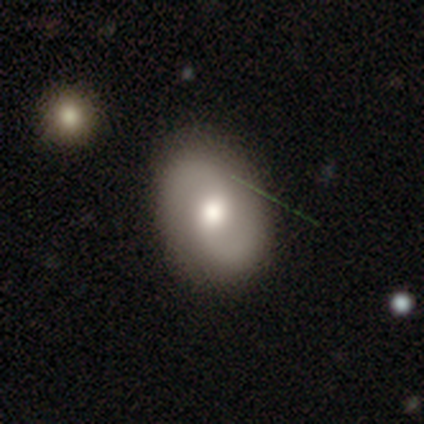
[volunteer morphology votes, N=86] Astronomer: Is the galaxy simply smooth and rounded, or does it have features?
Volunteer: featured or disk — 63%.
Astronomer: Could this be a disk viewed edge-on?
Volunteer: no — 98%.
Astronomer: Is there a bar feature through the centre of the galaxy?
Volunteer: no — 53% (runner-up: weak, 43%).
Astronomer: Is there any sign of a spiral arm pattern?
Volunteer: yes — 92%.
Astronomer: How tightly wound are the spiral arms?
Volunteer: medium — 51% (runner-up: loose, 39%).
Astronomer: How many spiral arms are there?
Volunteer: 2 — 96%.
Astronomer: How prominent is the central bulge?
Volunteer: moderate — 72%.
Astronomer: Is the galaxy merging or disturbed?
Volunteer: none — 85%.